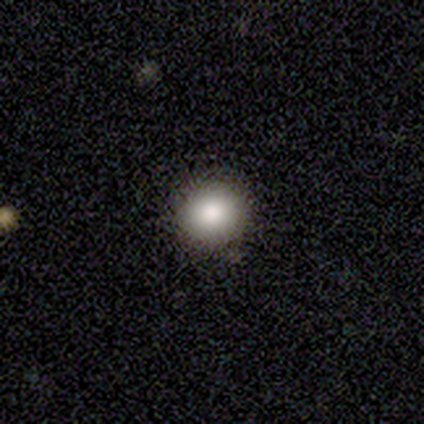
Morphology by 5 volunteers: This is clearly a smooth galaxy (80%). How rounded: clearly round (100%). Merging: clearly none (100%).